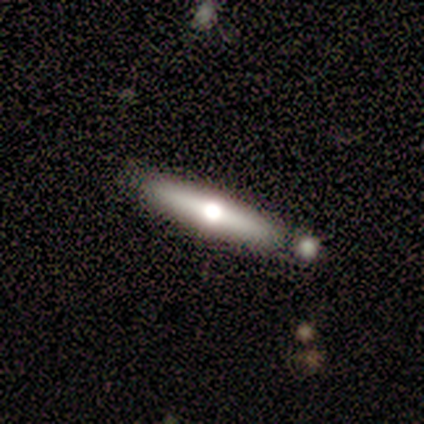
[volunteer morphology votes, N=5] Overall: featured or disk (80%). Edge-on disk: yes (100%). Edge-on bulge: rounded (100%). Merging: none (80%).